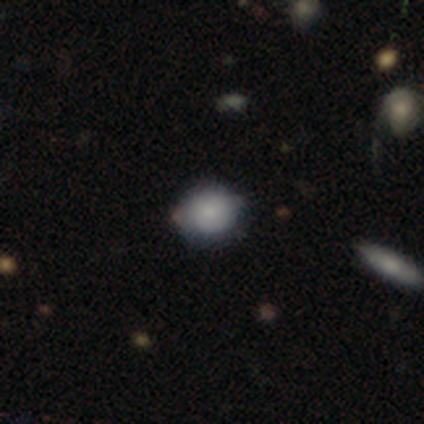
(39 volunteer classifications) This is likely a smooth galaxy (79%). How rounded: likely round (71%). Merging: likely none (76%).